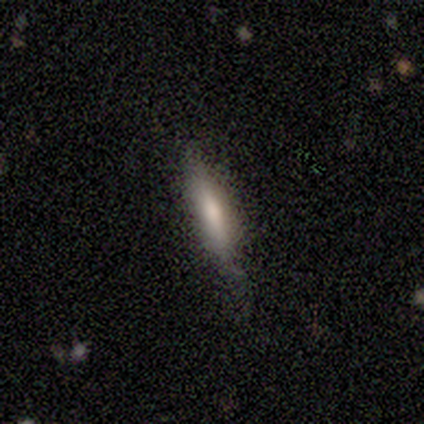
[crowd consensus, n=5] smooth 60%, featured or disk 40%, star or artifact 0%. Down the decision tree: how rounded — cigar-shaped (67%); merging — none (80%).